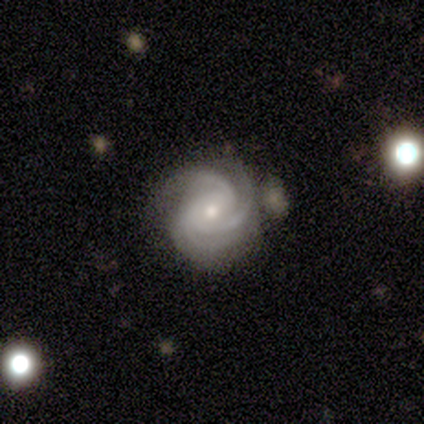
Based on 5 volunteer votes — smooth-or-featured: featured or disk: 100% | smooth: 0% | star or artifact: 0%
  disk-edge-on: no: 100% | yes: 0%
    bar: no: 60% | weak: 40% | strong: 0%
    has-spiral-arms: yes: 100% | no: 0%
      spiral-winding: tight: 100% | medium: 0% | loose: 0%
      spiral-arm-count: 3: 60% | 2: 40% | 1: 0% | 4: 0% | more than 4: 0% | can't tell: 0%
    bulge-size: small: 60% | moderate: 40% | dominant: 0% | large: 0% | none: 0%
  merging: none: 80% | minor disturbance: 20% | major disturbance: 0% | merger: 0%